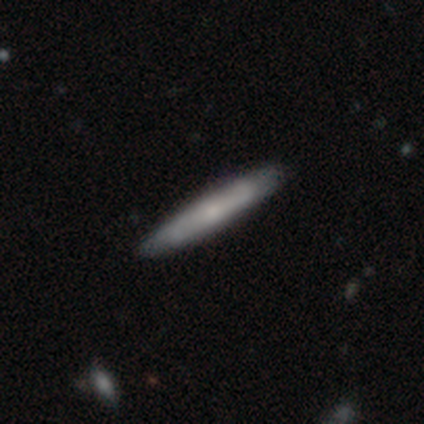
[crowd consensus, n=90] smooth_or_featured: smooth (p=0.53) [alt: featured or disk p=0.42]
how_rounded: cigar-shaped (p=0.94) [alt: in between p=0.06]
merging: none (p=0.85) [alt: minor disturbance p=0.10]